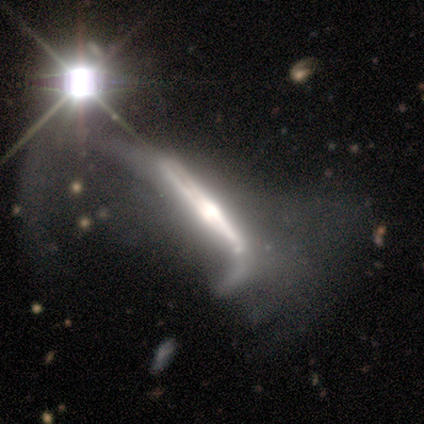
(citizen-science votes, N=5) A featured or disk galaxy (80%) viewed edge-on (50%, tied with no) with a rounded central bulge (100%).

Vote fractions:
- Smooth or featured? featured or disk: 80% / star or artifact: 20% / smooth: 0%
- Edge-on disk? yes: 50% (tied) / no: 50% (tied)
- Edge-on bulge? rounded: 100% / boxy: 0% / none: 0%
- Merging? major disturbance: 100% / none: 0% / minor disturbance: 0% / merger: 0%